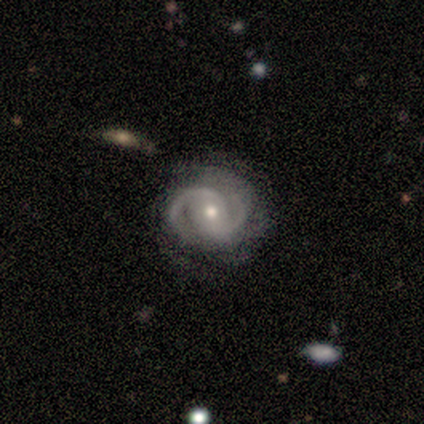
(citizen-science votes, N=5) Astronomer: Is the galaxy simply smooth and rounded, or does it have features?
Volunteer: featured or disk — 100%.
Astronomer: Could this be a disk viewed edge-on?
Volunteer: no — 100%.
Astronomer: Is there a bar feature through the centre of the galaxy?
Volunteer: no — 100%.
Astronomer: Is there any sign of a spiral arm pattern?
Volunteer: yes — 100%.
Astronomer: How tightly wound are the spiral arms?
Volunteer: medium — 40%, tied with loose at 40%.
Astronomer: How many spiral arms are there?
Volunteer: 2 — 80%.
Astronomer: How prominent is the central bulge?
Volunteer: moderate — 60% (runner-up: small, 40%).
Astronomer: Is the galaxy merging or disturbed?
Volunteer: none — 80%.